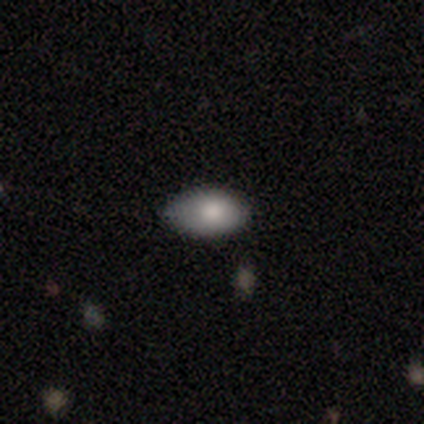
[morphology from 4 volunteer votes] Q: Smooth or featured?
A: smooth (50%); runner-up: featured or disk (25%)
Q: How rounded?
A: in between (100%)
Q: Merging?
A: none (67%); runner-up: minor disturbance (33%)